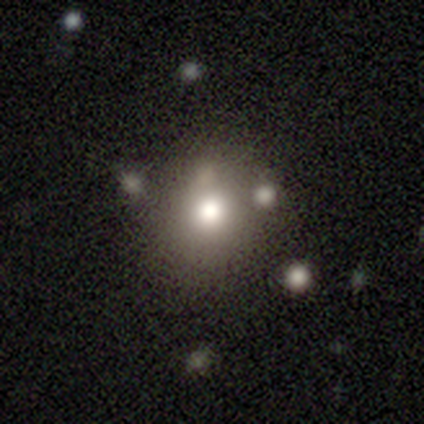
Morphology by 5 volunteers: A smooth galaxy with no disk features (100%) that is round (100%). Merging: none (100%).